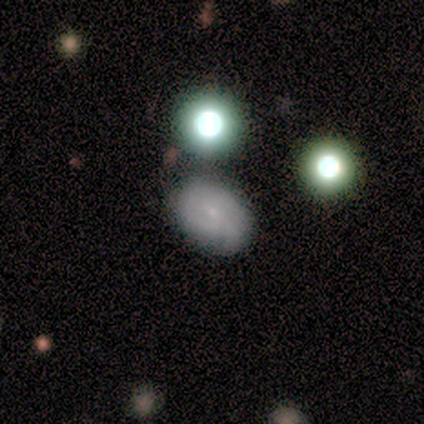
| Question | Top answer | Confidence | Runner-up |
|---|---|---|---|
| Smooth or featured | smooth | 60% | featured or disk (40%) |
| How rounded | in between | 100% | — |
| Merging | none | 100% | — |